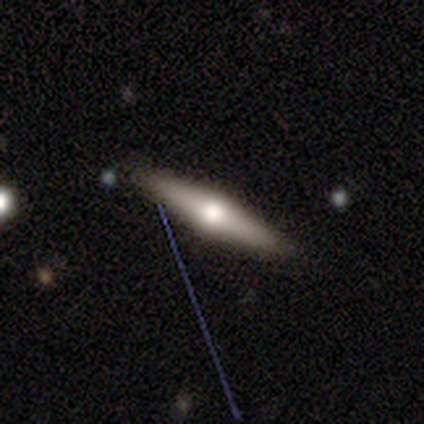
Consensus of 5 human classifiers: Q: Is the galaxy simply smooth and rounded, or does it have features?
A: featured or disk — 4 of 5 (80%).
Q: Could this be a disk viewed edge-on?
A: yes — 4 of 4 (100%).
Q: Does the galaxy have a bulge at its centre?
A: rounded — 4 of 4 (100%).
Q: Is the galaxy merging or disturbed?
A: none — 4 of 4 (100%).